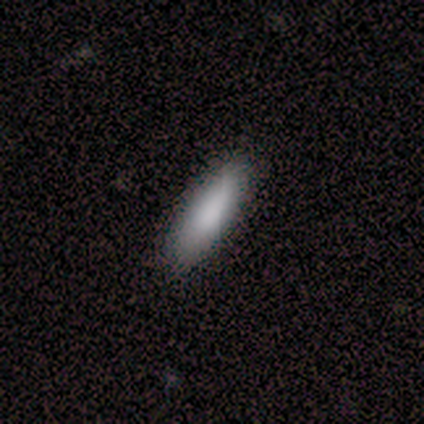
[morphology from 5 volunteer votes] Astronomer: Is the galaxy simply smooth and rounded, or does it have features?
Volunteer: smooth — 60%.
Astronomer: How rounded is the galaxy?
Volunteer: in between — 100%.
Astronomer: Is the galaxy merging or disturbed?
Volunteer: none — 75%.